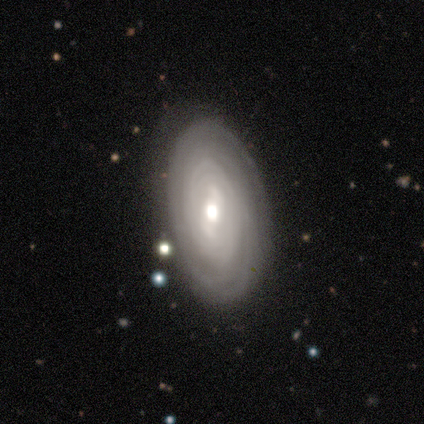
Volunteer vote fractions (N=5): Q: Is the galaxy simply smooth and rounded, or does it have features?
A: featured or disk — 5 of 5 (100%).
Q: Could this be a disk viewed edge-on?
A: no — 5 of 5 (100%).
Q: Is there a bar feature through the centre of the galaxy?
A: weak — 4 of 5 (80%).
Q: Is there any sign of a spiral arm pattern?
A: yes — 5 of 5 (100%).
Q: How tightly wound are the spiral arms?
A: tight — 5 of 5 (100%).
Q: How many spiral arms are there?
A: can't tell — 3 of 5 (60%).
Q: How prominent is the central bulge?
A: moderate — 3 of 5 (60%).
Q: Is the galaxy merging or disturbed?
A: none — 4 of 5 (80%).